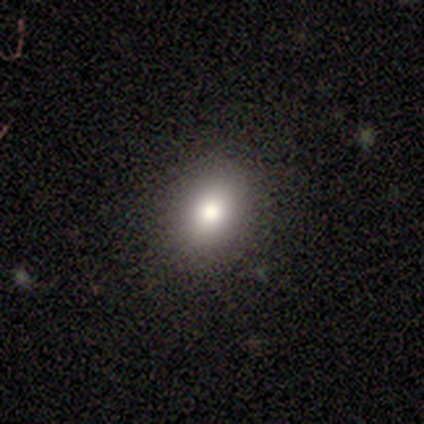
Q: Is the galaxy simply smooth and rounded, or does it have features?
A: smooth — 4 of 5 (80%).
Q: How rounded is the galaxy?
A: round — 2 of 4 (50%, tied with in between).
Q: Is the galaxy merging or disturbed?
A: none — 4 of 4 (100%).